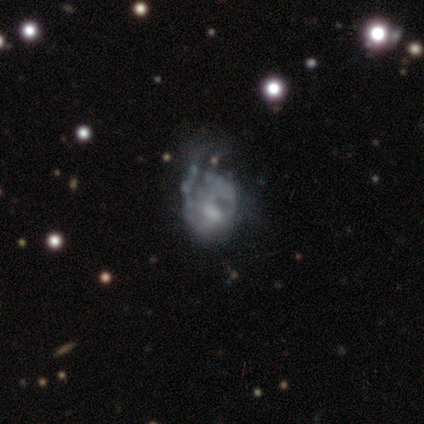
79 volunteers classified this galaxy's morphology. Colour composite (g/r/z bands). It shows a featured or disk galaxy (76%) with no bar (63%), no spiral arms (61%) and a moderate central bulge (39%). Merging: major disturbance (66%).